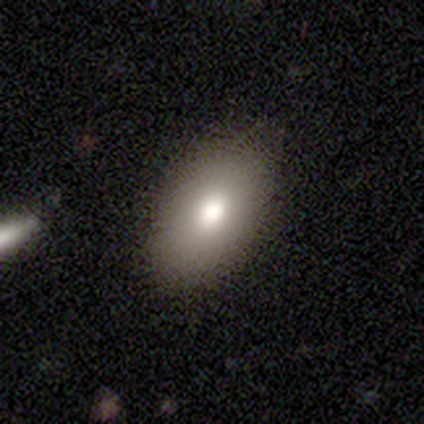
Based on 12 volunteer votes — A smooth galaxy with no disk features (83%) that is in between round and cigar-shaped (100%).

Vote fractions:
- Smooth or featured? smooth: 83% / featured or disk: 17% / star or artifact: 0%
- How rounded? in between: 100% / round: 0% / cigar-shaped: 0%
- Merging? none: 83% / minor disturbance: 17% / major disturbance: 0% / merger: 0%